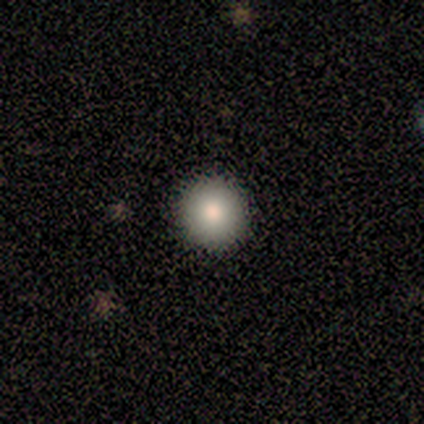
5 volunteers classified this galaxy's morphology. This is clearly a smooth galaxy (80%). How rounded: clearly round (100%). Merging: clearly none (80%).